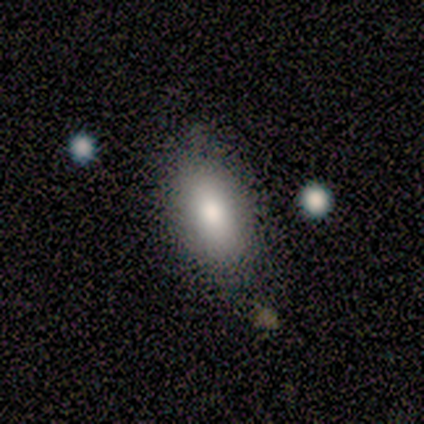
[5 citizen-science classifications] Morphology: type=smooth (100%); roundness=in between (100%); merging=none (100%).